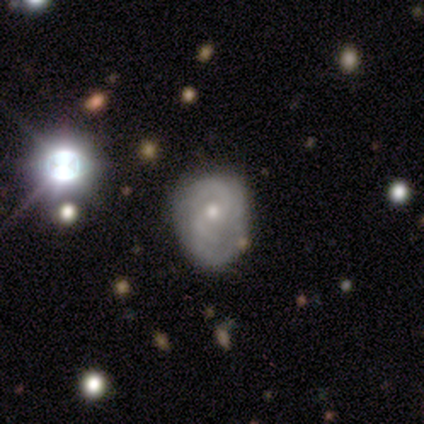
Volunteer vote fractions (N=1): Consensus on every question: smooth or featured — featured or disk (100%); edge-on disk — no (100%); bar — no (100%); spiral arms — yes (100%); spiral winding — tight (100%); spiral arm count — 2 (100%); bulge size — small (100%); merging — minor disturbance (100%).